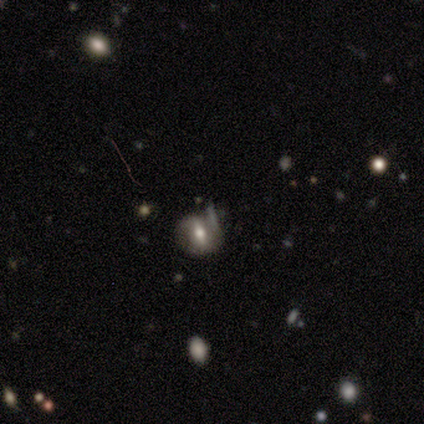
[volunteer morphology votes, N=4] A smooth galaxy with no disk features (50%) that is round (50%, tied with in between). Merging: minor disturbance (67%).